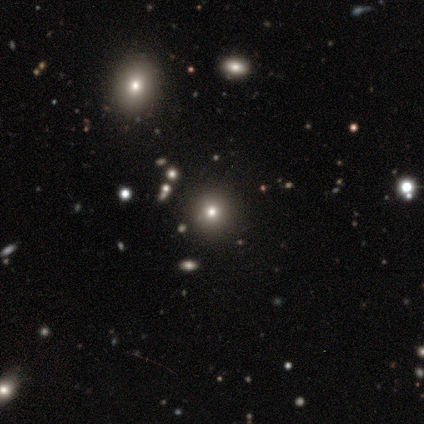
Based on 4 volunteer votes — Q: Smooth or featured?
A: smooth (100%)
Q: How rounded?
A: round (100%)
Q: Merging?
A: none (50%); runner-up: minor disturbance (25%)